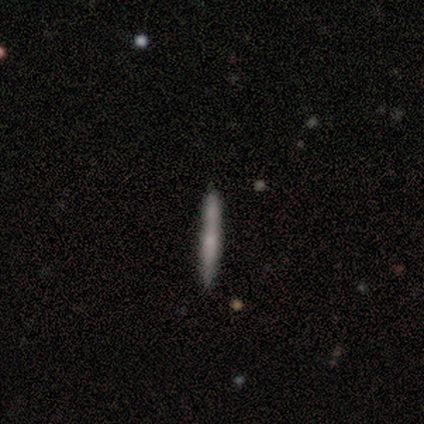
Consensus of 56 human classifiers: Q: Smooth or featured?
A: featured or disk (52%); runner-up: smooth (48%)
Q: Edge-on disk?
A: yes (90%); runner-up: no (10%)
Q: Edge-on bulge?
A: none (65%); runner-up: rounded (23%)
Q: Merging?
A: none (71%); runner-up: minor disturbance (18%)